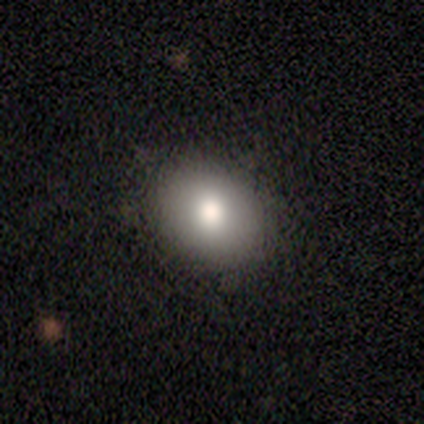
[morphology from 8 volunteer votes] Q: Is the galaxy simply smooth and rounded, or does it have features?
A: smooth — 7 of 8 (88%).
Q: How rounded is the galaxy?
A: in between — 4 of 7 (57%).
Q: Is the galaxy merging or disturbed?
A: none — 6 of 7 (86%).